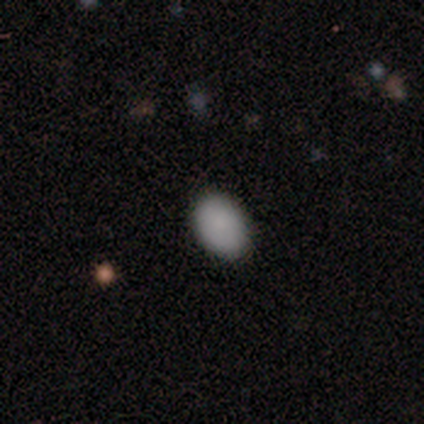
Smooth or featured?
  - smooth: 85% *
  - featured or disk: 8%
  - star or artifact: 8%
How rounded?
  - in between: 100% *
  - round: 0%
  - cigar-shaped: 0%
Merging?
  - none: 92% *
  - major disturbance: 8%
  - minor disturbance: 0%
  - merger: 0%